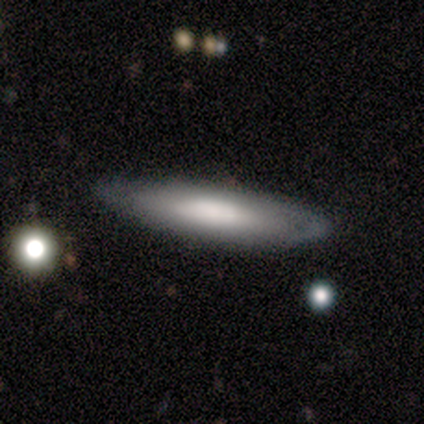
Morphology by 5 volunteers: Smooth or featured? featured or disk (80%)
Edge-on disk? yes (50%, tied with no)
Edge-on bulge? none (50%, tied with rounded)
Merging? none (100%)